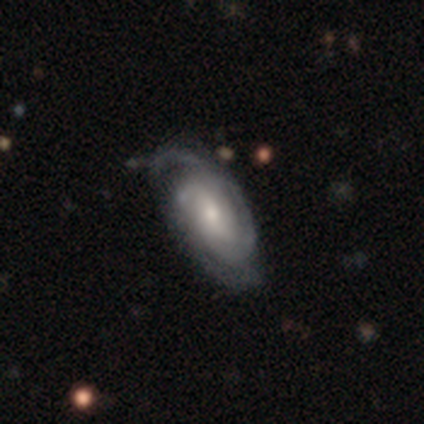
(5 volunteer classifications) This appears to be a featured or disk galaxy (100%) with a weak bar (75%), 2 (50%) tight (75%) spiral arms (100%) and a small central bulge (75%). Merging: none (60%).